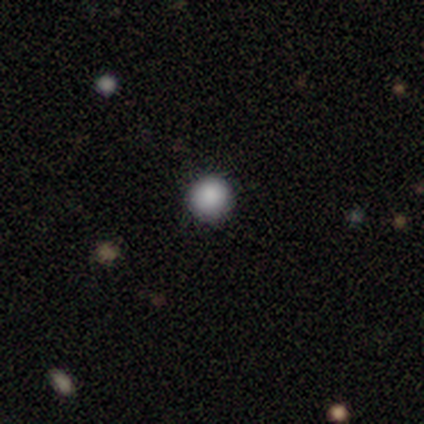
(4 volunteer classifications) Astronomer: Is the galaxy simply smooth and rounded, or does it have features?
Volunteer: smooth — 100%.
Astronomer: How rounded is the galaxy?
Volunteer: round — 100%.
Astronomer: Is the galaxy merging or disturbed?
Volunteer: none — 100%.